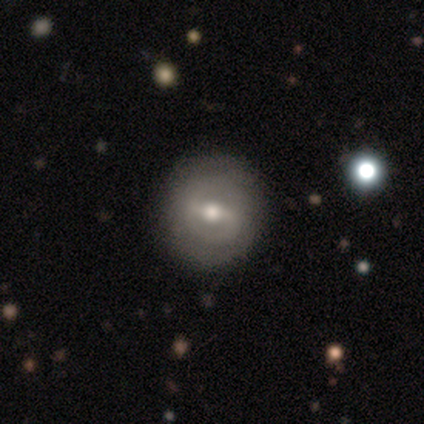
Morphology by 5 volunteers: smooth_or_featured: smooth (p=0.60) [alt: featured or disk p=0.40]
how_rounded: round (p=1.00)
merging: none (p=0.80) [alt: minor disturbance p=0.20]